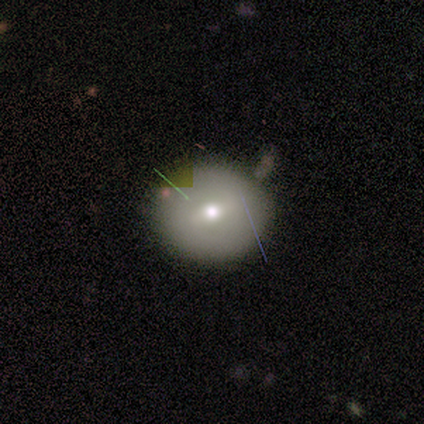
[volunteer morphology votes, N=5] This is likely a featured or disk galaxy (60%). It is clearly not viewed edge-on (100%). Bar: likely weak (67%). Spiral arm pattern: likely no (67%). Central bulge: likely moderate (67%). Merging: clearly none (100%).